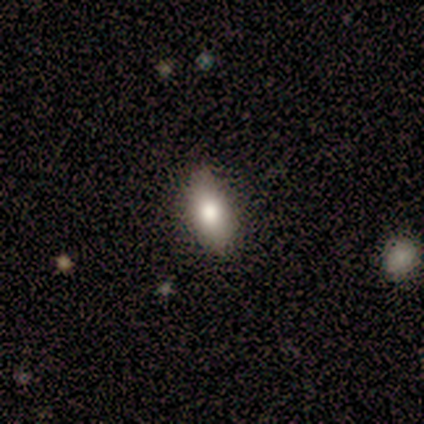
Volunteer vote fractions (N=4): Morphology: type=smooth (100%); roundness=in between (100%); merging=none (50%).